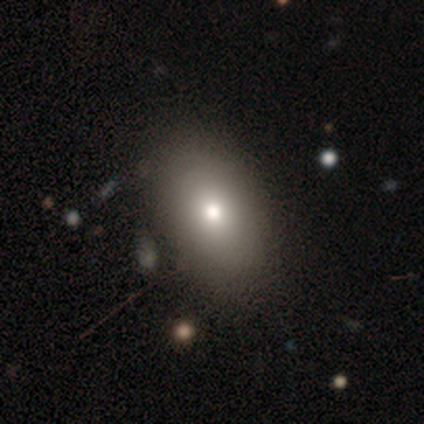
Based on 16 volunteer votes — Smooth or featured?
  - smooth: 88% *
  - star or artifact: 12%
  - featured or disk: 0%
How rounded?
  - in between: 93% *
  - cigar-shaped: 7%
  - round: 0%
Merging?
  - none: 71% *
  - major disturbance: 14%
  - minor disturbance: 7%
  - merger: 7%